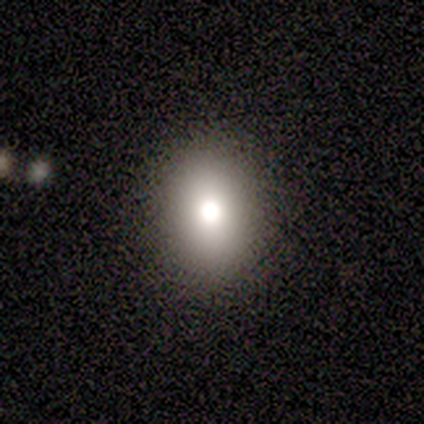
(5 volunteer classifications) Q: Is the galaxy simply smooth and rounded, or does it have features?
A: smooth — 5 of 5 (100%).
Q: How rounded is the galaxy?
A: round — 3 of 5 (60%).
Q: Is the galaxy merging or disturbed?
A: none — 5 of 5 (100%).